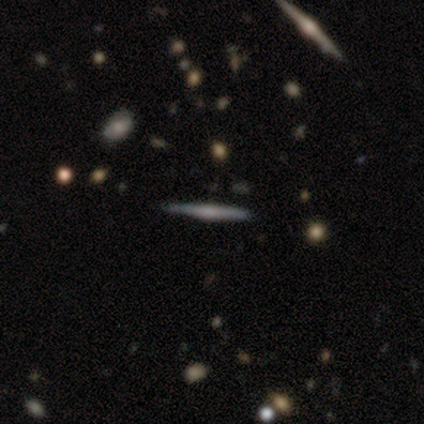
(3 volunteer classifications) A featured or disk galaxy (100%) viewed edge-on (100%) with a boxy central bulge (67%). Merging: none (100%).